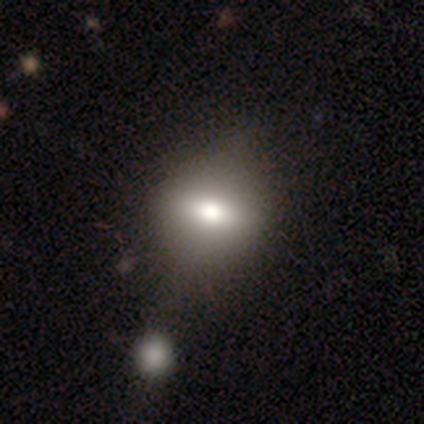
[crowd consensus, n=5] smooth 80%, star or artifact 20%, featured or disk 0%. Down the decision tree: how rounded — round (50%, tied with in between); merging — none (75%).